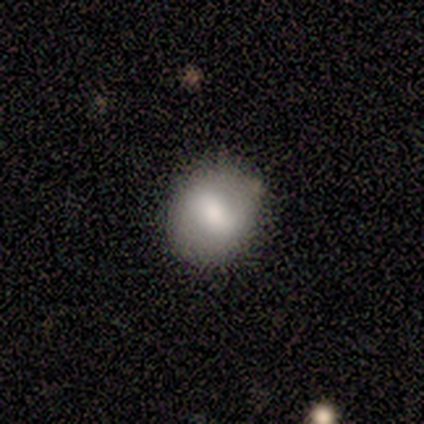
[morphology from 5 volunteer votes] smooth_or_featured: smooth (p=0.60) [alt: featured or disk p=0.20]
how_rounded: round (p=1.00)
merging: none (p=0.75) [alt: minor disturbance p=0.25]